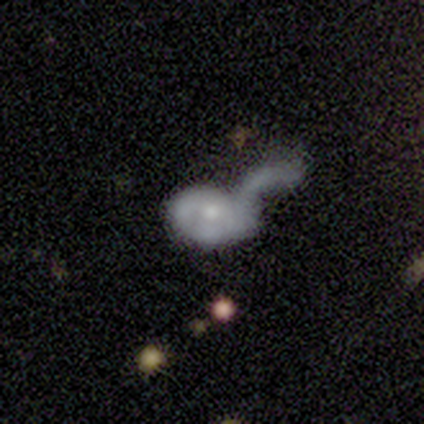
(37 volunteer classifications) Overall: featured or disk (51%; smooth 46%). Edge-on disk: no (100%). Bar: no (89%). Spiral arms: no (63%; yes 37%). Bulge size: moderate (47%; small 42%). Merging: merger (47%; major disturbance 44%).